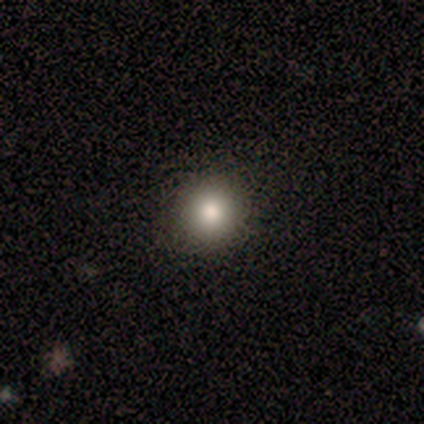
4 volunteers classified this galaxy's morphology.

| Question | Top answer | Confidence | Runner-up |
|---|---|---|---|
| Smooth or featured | smooth | 50% | featured or disk (25%) |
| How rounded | round | 50% | tied: in between (50%) |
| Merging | none | 100% | — |